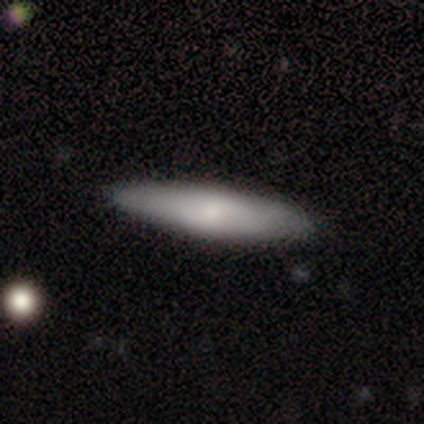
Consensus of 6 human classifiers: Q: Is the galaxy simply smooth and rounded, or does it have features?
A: smooth — 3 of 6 (50%, tied with featured or disk).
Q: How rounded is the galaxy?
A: cigar-shaped — 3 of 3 (100%).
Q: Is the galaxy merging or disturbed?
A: none — 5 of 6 (83%).